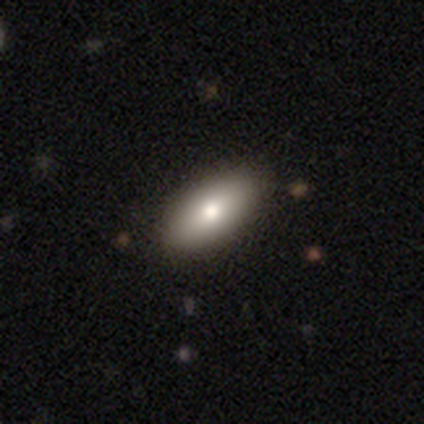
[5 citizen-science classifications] smooth_or_featured: featured or disk (p=0.40) [tied with: star or artifact p=0.40]
disk_edge_on: yes (p=0.50) [tied with: no p=0.50]
edge_on_bulge: rounded (p=1.00)
merging: minor disturbance (p=1.00)